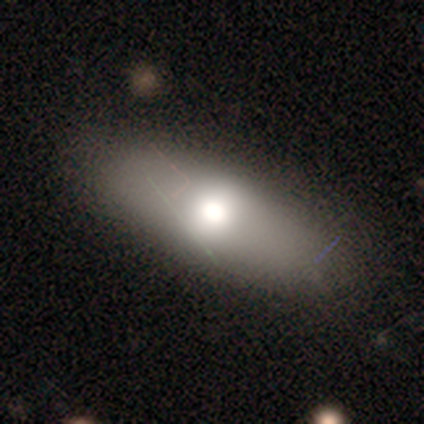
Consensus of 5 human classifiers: smooth_or_featured: featured or disk (p=0.60) [alt: smooth p=0.40]
disk_edge_on: no (p=0.67) [alt: yes p=0.33]
bar: weak (p=0.50) [tied with: no p=0.50]
has_spiral_arms: no (p=1.00)
bulge_size: large (p=0.50) [tied with: moderate p=0.50]
merging: none (p=0.80) [alt: minor disturbance p=0.20]